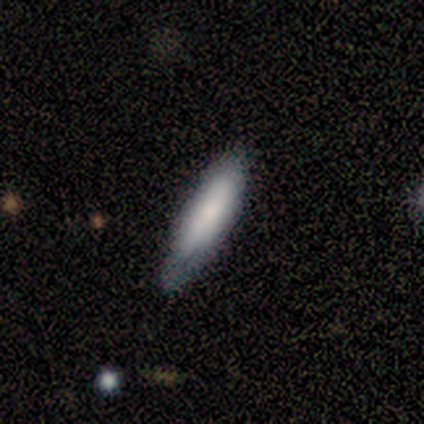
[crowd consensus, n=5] This is likely a smooth galaxy (60%). How rounded: likely cigar-shaped (67%). Merging: likely none (60%).